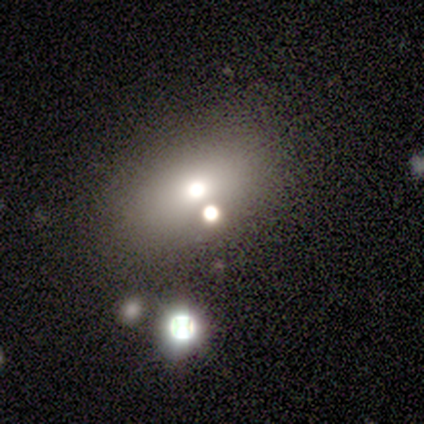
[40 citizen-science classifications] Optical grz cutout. It shows a smooth galaxy with no disk features (42%) that is in between round and cigar-shaped (59%). Merging: none (62%).